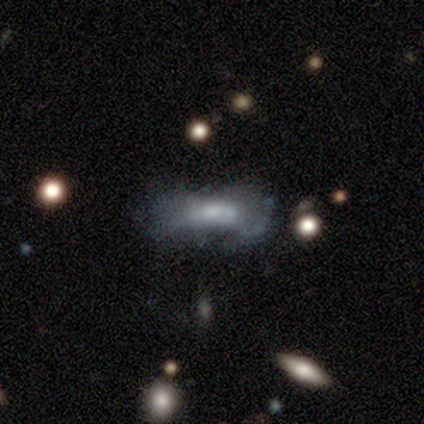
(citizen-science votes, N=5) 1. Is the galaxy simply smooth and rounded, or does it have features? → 80% smooth, 20% star or artifact, 0% featured or disk.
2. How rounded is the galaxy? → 75% in between, 25% cigar-shaped, 0% round.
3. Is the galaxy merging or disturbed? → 50% minor disturbance (tied), 50% merger (tied), 0% none, 0% major disturbance.